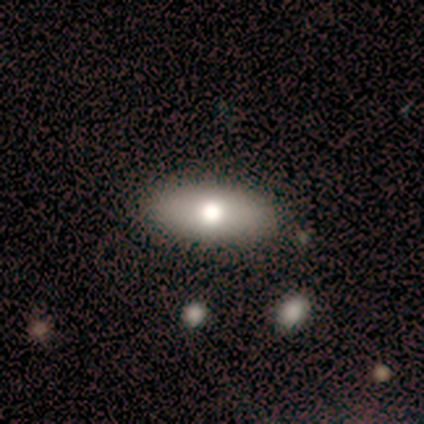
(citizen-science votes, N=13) smooth 77%, featured or disk 23%, star or artifact 0%. Down the decision tree: how rounded — in between (80%); merging — none (85%).